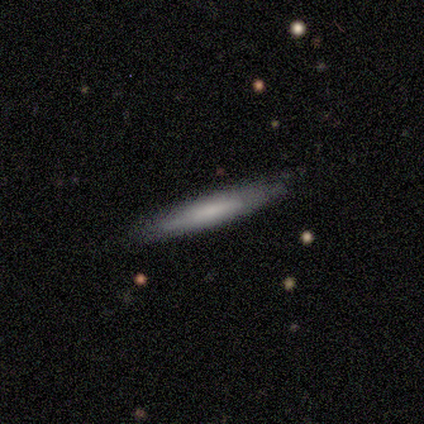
Morphology: type=smooth (50%); roundness=cigar-shaped (100%); merging=none (67%).